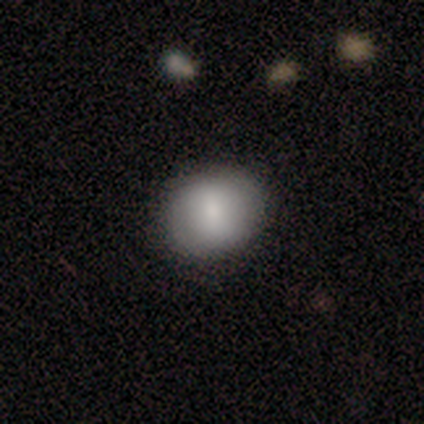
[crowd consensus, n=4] This is likely a smooth galaxy (75%). How rounded: likely in between (67%). Merging: likely none (67%).